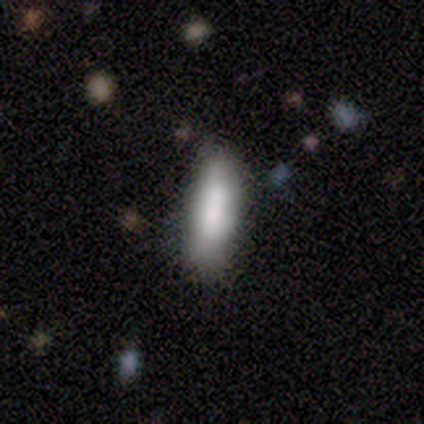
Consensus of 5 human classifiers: A smooth galaxy with no disk features (80%) that is cigar-shaped (75%). Merging: none (40%, tied with minor disturbance).